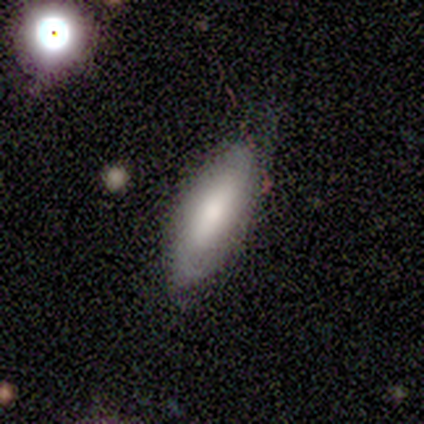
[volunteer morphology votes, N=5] Smooth or featured? 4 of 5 (80%) said smooth. How rounded? 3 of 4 (75%) said cigar-shaped. Merging? 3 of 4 (75%) said none.